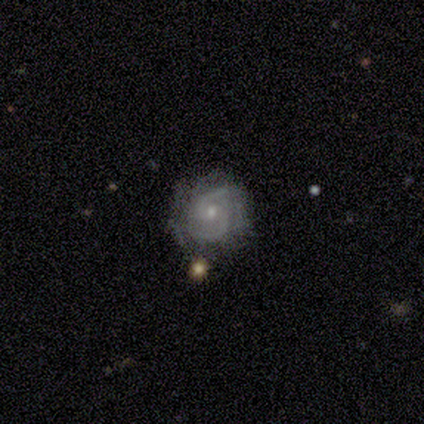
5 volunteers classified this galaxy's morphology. Overall: featured or disk (100%). Edge-on disk: no (80%). Bar: no (75%). Spiral arms: yes (100%). Spiral arm count: 2 (75%). Spiral winding: medium (75%). Bulge size: small (75%). Merging: none (60%; minor disturbance 40%).